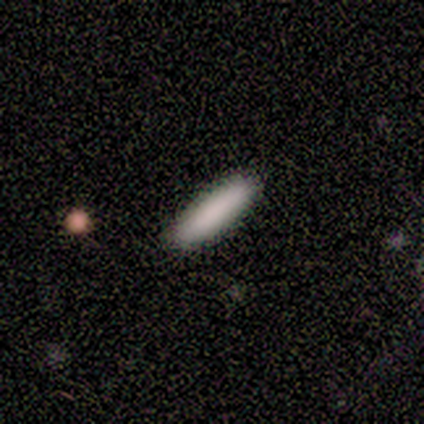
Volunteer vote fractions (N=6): Q: Smooth or featured?
A: smooth (100%)
Q: How rounded?
A: in between (50%); tied with: cigar-shaped (50%)
Q: Merging?
A: none (100%)